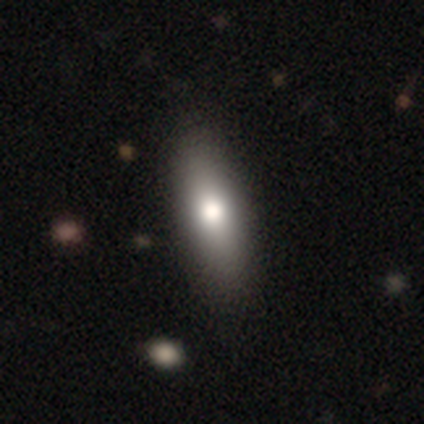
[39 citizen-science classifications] This appears to be a smooth galaxy with no disk features (74%) that is in between round and cigar-shaped (66%). Merging: none (56%).